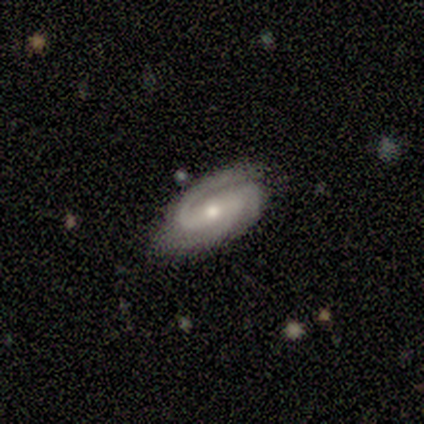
Morphology: type=featured or disk (80%); edge-on=no (100%); bar=weak (50%); spiral arms=yes (100%); winding=medium (75%); arm count=2 (50%, tied with 3); bulge=moderate (50%, tied with small); merging=none (40%, tied with minor disturbance).